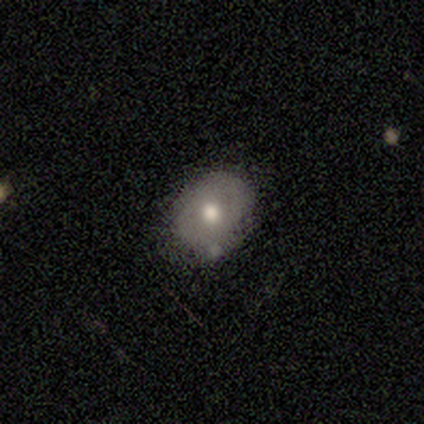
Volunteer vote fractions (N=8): A smooth galaxy with no disk features (75%) that is round (50%, tied with in between). Merging: none (88%).